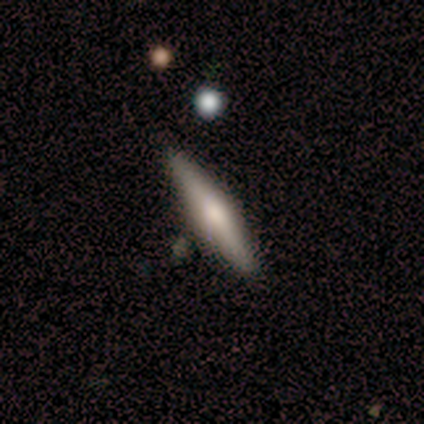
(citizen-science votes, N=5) A featured or disk galaxy (60%) viewed edge-on (100%) with a rounded central bulge (100%). Merging: none (80%).